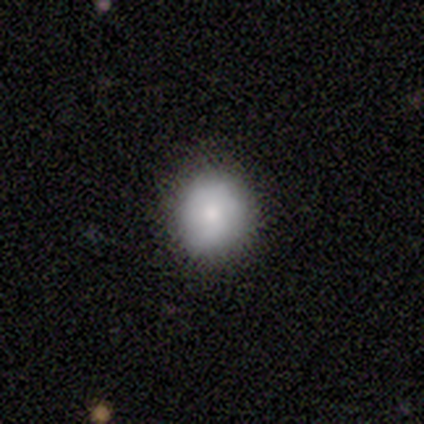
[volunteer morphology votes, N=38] This is clearly a smooth galaxy (82%). How rounded: clearly round (90%). Merging: likely none (62%).